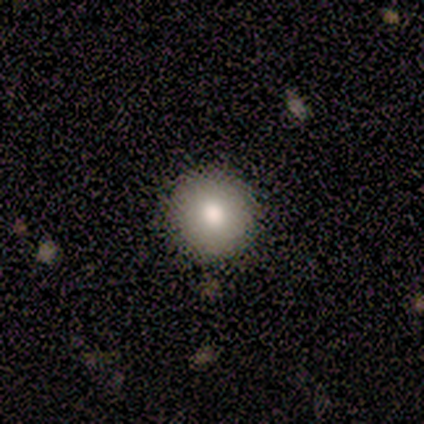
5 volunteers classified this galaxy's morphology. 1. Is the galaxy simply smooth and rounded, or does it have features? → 100% smooth, 0% featured or disk, 0% star or artifact.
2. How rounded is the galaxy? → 100% round, 0% in between, 0% cigar-shaped.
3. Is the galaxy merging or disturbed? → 100% none, 0% minor disturbance, 0% major disturbance, 0% merger.